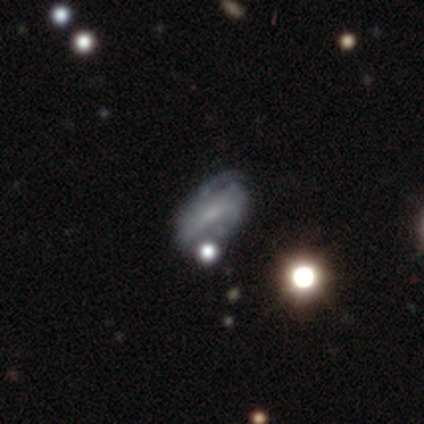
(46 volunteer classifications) This appears to be a featured or disk galaxy (76%) with a weak bar (40%), 2 (68%) tight (46%) spiral arms (80%) and a small central bulge (63%). Merging: none (49%).